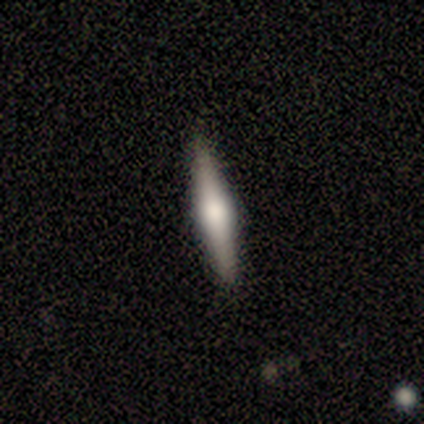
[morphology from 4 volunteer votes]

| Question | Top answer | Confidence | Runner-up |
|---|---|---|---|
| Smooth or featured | smooth | 50% | featured or disk (25%) |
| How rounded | cigar-shaped | 100% | — |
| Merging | none | 100% | — |